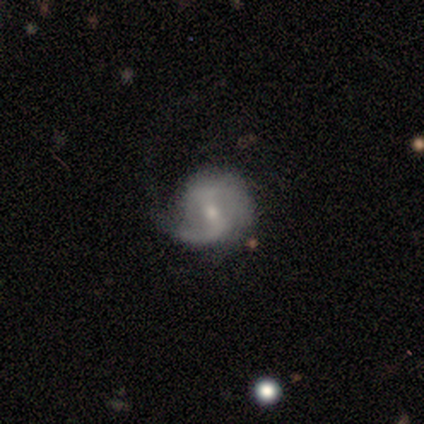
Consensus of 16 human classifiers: featured or disk 75%, smooth 19%, star or artifact 6%. Down the decision tree: edge-on disk — no (100%); bar — weak (67%); spiral arms — yes (100%); spiral arm count — 2 (75%); spiral winding — loose (50%); bulge size — small (58%); merging — none (60%).